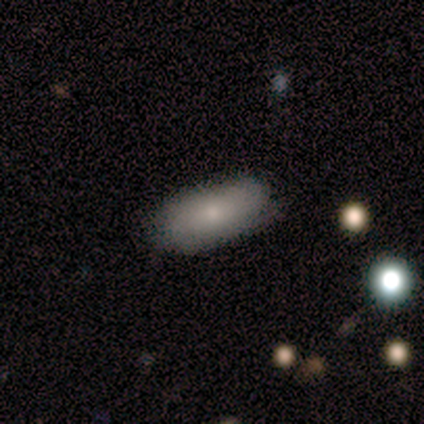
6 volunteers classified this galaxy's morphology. smooth 100%, featured or disk 0%, star or artifact 0%. Down the decision tree: how rounded — in between (50%, tied with cigar-shaped); merging — none (67%).